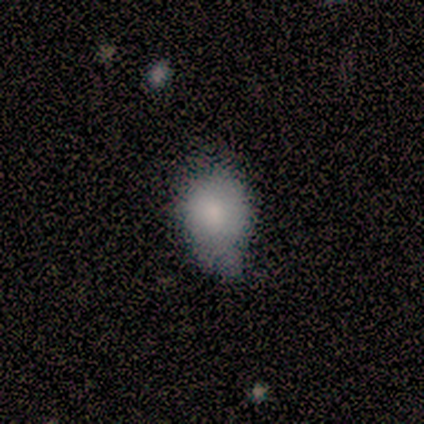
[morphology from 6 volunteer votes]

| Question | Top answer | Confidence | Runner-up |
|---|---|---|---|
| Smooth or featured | smooth | 67% | featured or disk (17%) |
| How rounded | round | 50% | tied: in between (50%) |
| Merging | minor disturbance | 60% | none (40%) |